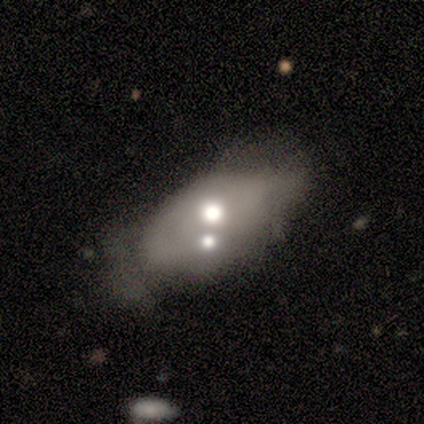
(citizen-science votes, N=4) Smooth or featured? smooth (100%)
How rounded? in between (75%)
Merging? major disturbance (50%)